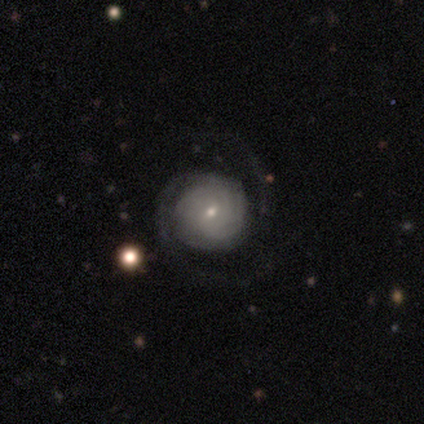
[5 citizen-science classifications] Morphology: type=featured or disk (80%); edge-on=no (100%); bar=weak (50%, tied with no); spiral arms=yes (100%); winding=tight (75%); arm count=can't tell (75%); bulge=small (100%); merging=none (40%, tied with minor disturbance).